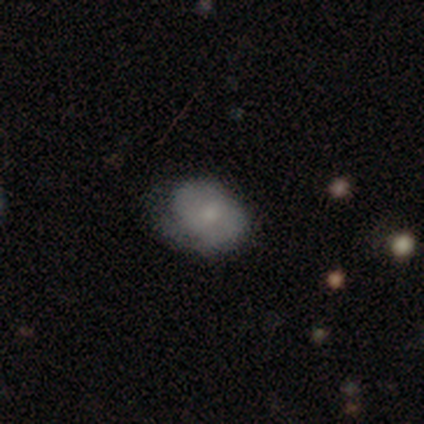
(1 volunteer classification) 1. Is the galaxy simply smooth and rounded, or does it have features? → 100% smooth, 0% featured or disk, 0% star or artifact.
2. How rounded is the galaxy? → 100% in between, 0% round, 0% cigar-shaped.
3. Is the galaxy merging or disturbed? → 100% minor disturbance, 0% none, 0% major disturbance, 0% merger.